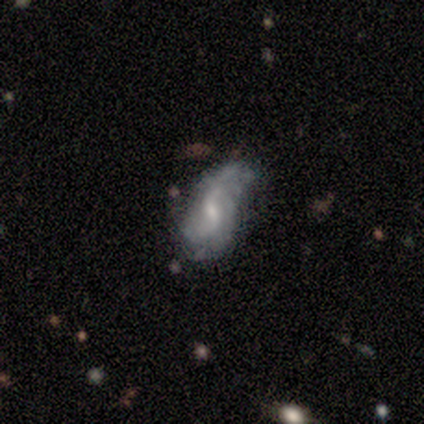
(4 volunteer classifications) Overall: featured or disk (75%). Edge-on disk: no (67%; yes 33%). Bar: weak (50%, tied with no). Spiral arms: yes (100%). Spiral arm count: 2 (100%). Spiral winding: loose (100%). Bulge size: small (50%, tied with none). Merging: minor disturbance (75%).